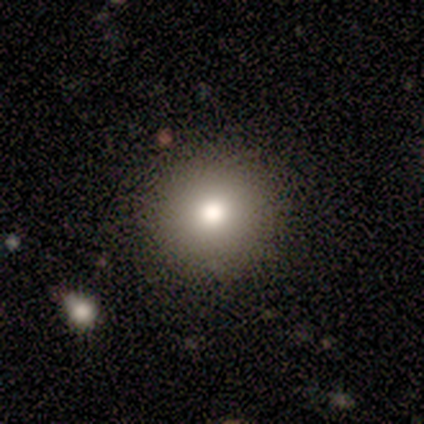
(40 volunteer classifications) Q: Smooth or featured?
A: smooth (70%); runner-up: featured or disk (18%)
Q: How rounded?
A: round (93%); runner-up: in between (7%)
Q: Merging?
A: none (94%); runner-up: minor disturbance (3%)